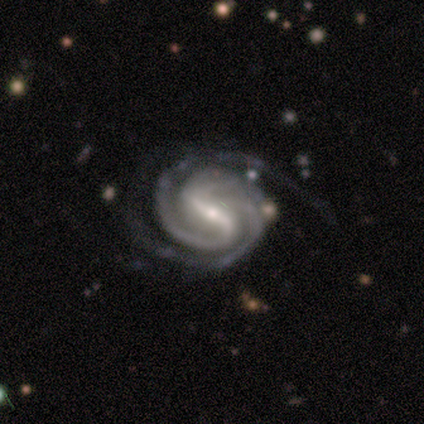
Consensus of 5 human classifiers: Smooth or featured: featured or disk — 100%
Edge-on disk: no — 100%
Bar: strong — 100%
Spiral arms: yes — 100%
Spiral winding: tight — 100%
Spiral arm count: 2 — 100%
Bulge size: small — 60% (moderate — 40%)
Merging: none — 80% (minor disturbance — 20%)